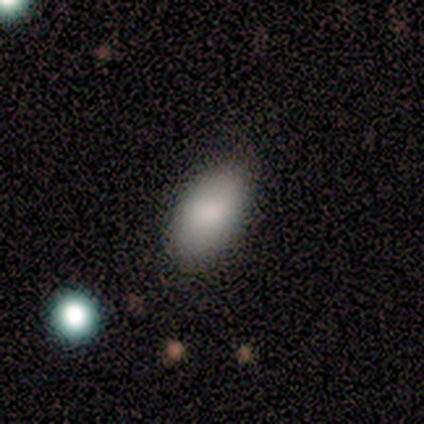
Morphology: type=smooth (100%); roundness=in between (100%); merging=none (50%, tied with major disturbance).